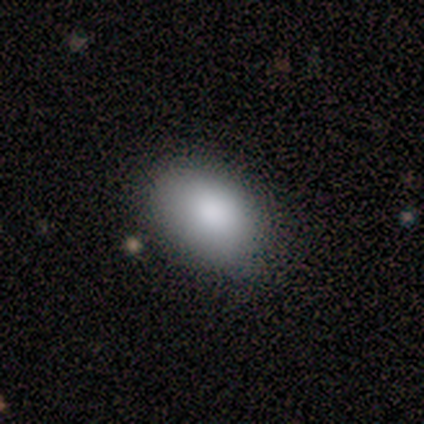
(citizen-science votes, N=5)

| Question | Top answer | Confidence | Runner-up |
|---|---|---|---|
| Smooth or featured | smooth | 100% | — |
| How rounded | in between | 100% | — |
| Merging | none | 80% | minor disturbance (20%) |